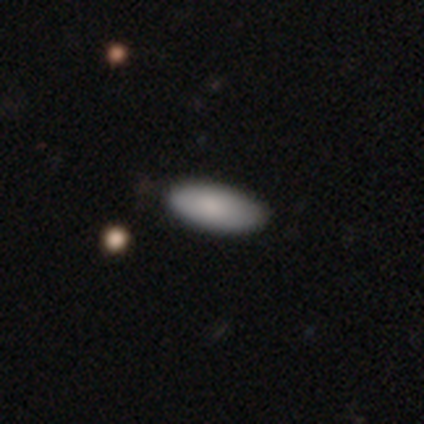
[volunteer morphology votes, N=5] Smooth or featured?
  - smooth: 100% *
  - featured or disk: 0%
  - star or artifact: 0%
How rounded?
  - in between: 100% *
  - round: 0%
  - cigar-shaped: 0%
Merging?
  - none: 100% *
  - minor disturbance: 0%
  - major disturbance: 0%
  - merger: 0%